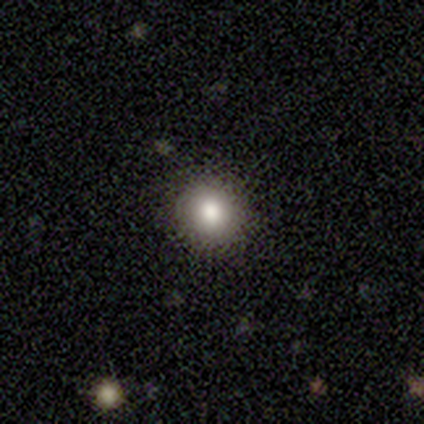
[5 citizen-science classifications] smooth 100%, featured or disk 0%, star or artifact 0%. Down the decision tree: how rounded — round (80%); merging — none (100%).